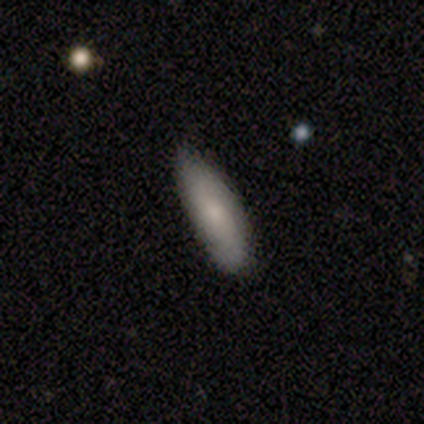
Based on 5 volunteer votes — Smooth or featured? 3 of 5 (60%) said smooth. How rounded? 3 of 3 (100%) said in between. Merging? 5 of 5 (100%) said none.